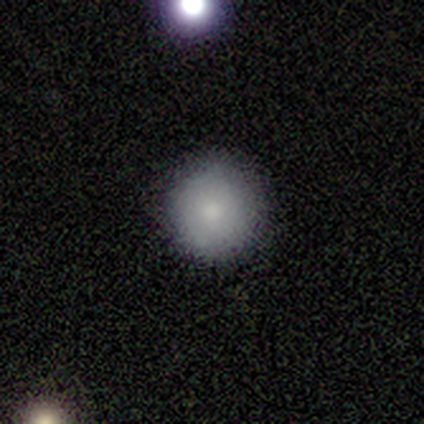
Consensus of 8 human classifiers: smooth-or-featured: smooth: 88% | featured or disk: 12% | star or artifact: 0%
  how-rounded: round: 100% | in between: 0% | cigar-shaped: 0%
  merging: none: 100% | minor disturbance: 0% | major disturbance: 0% | merger: 0%